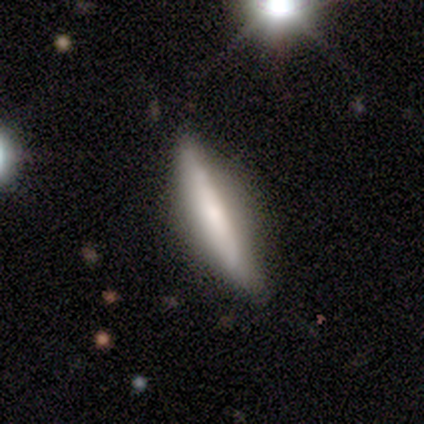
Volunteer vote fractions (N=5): smooth-or-featured: smooth: 60% | featured or disk: 40% | star or artifact: 0%
  how-rounded: cigar-shaped: 100% | round: 0% | in between: 0%
  merging: none: 60% | minor disturbance: 40% | major disturbance: 0% | merger: 0%